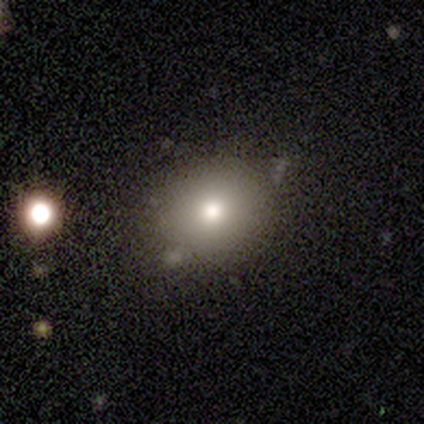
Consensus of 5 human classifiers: smooth 80%, star or artifact 20%, featured or disk 0%. Down the decision tree: how rounded — round (100%); merging — none (75%).